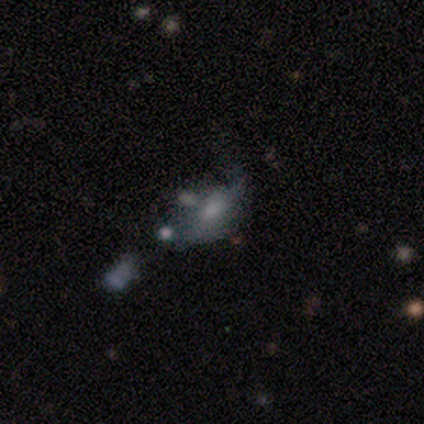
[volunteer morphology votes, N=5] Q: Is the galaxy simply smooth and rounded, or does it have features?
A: smooth — 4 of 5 (80%).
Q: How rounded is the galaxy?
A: in between — 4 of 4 (100%).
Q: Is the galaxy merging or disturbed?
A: none — 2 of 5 (40%, tied with major disturbance).